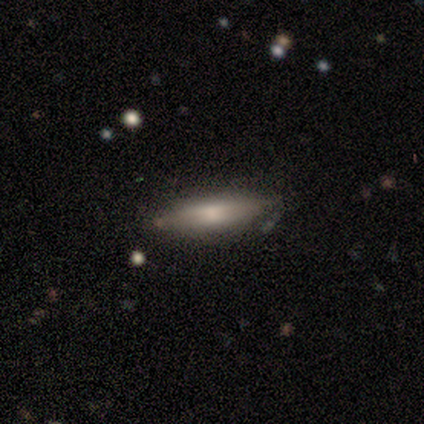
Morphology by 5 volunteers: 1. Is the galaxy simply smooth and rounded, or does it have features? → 60% featured or disk, 40% smooth, 0% star or artifact.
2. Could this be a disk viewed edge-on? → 67% yes, 33% no.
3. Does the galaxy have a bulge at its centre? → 100% none, 0% boxy, 0% rounded.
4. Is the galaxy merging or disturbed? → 100% none, 0% minor disturbance, 0% major disturbance, 0% merger.